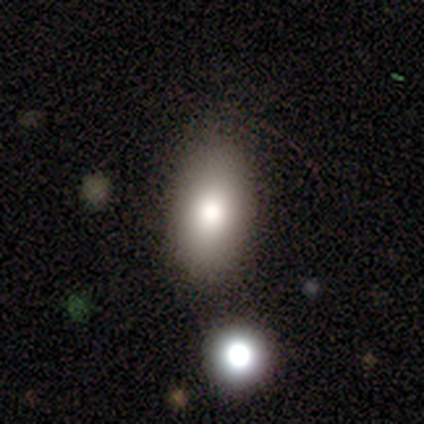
Morphology: type=smooth (50%); roundness=in between (100%); merging=none (100%).